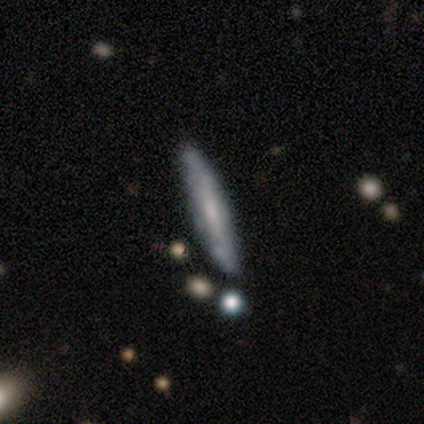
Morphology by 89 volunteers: Volunteers were most divided on "smooth or featured": smooth: 49%, featured or disk: 47%, star or artifact: 3%. More confident: how rounded — cigar-shaped (98%); merging — none (74%).